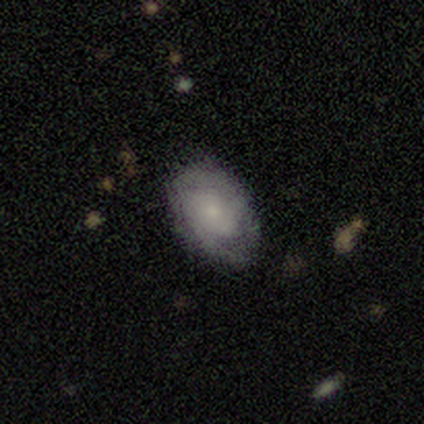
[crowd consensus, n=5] Volunteers were most divided on "smooth or featured": smooth: 60%, featured or disk: 40%, star or artifact: 0%. More confident: how rounded — in between (100%); merging — none (60%).